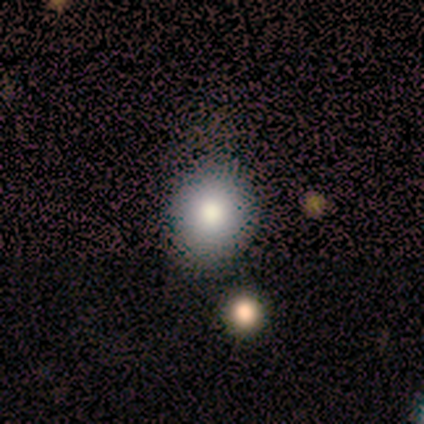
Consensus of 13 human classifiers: Smooth or featured? smooth (85%)
How rounded? round (73%)
Merging? none (82%)